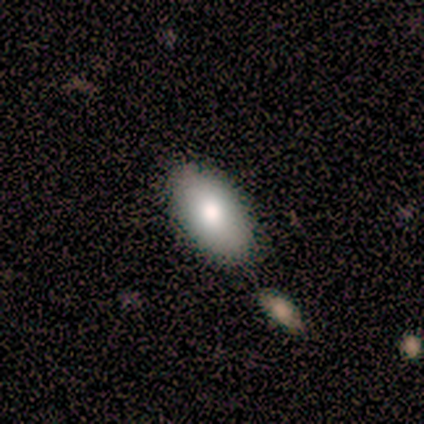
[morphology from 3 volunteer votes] Smooth or featured: smooth — 100%
How rounded: in between — 100%
Merging: none — 100%